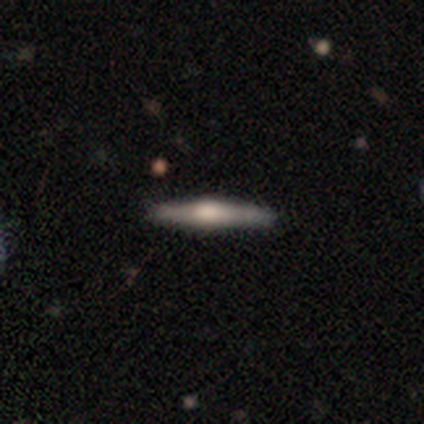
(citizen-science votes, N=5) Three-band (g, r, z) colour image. It shows a featured or disk galaxy (60%) viewed edge-on (100%) with a rounded central bulge (100%). Merging: none (100%).